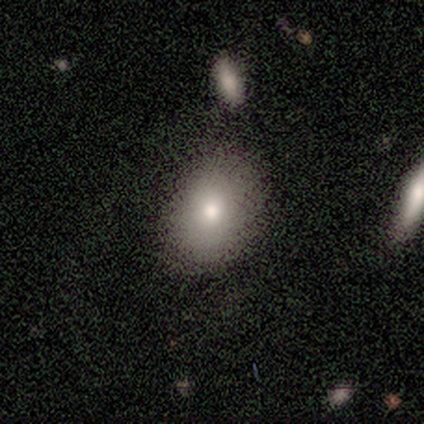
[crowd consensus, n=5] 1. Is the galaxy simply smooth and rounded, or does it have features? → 100% smooth, 0% featured or disk, 0% star or artifact.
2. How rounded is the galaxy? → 100% in between, 0% round, 0% cigar-shaped.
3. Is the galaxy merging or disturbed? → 60% none, 20% minor disturbance, 20% major disturbance, 0% merger.